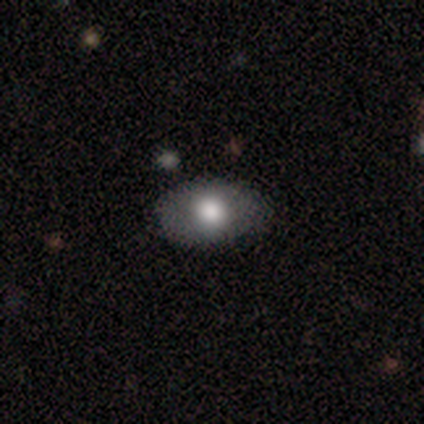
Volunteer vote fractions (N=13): Q: Smooth or featured?
A: smooth (62%); runner-up: featured or disk (23%)
Q: How rounded?
A: in between (88%); runner-up: round (12%)
Q: Merging?
A: none (91%); runner-up: major disturbance (9%)